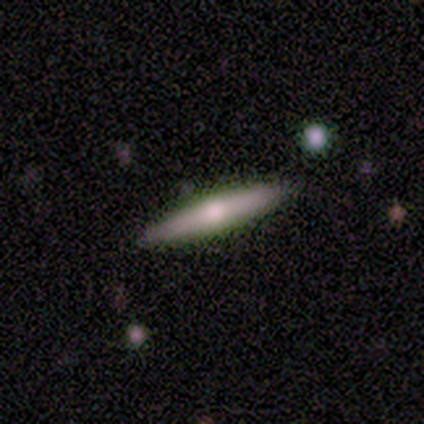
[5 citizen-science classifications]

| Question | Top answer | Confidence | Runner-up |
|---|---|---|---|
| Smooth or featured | featured or disk | 40% | tied: star or artifact (40%) |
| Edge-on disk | yes | 100% | — |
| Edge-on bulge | rounded | 100% | — |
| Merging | none | 67% | minor disturbance (33%) |